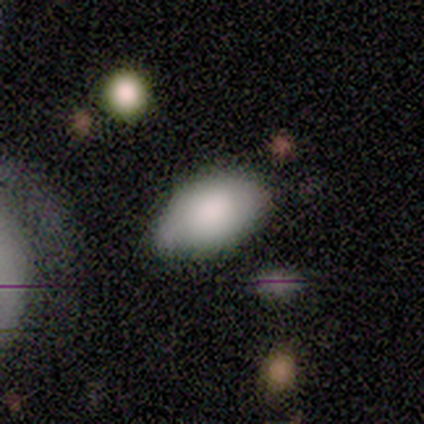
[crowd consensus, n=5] A smooth galaxy with no disk features (80%) that is in between round and cigar-shaped (100%).

Vote fractions:
- Smooth or featured? smooth: 80% / featured or disk: 20% / star or artifact: 0%
- How rounded? in between: 100% / round: 0% / cigar-shaped: 0%
- Merging? none: 80% / minor disturbance: 20% / major disturbance: 0% / merger: 0%